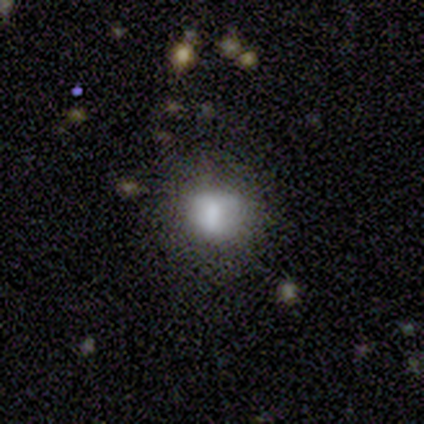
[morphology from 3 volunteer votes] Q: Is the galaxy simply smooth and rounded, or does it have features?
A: smooth — 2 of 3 (67%).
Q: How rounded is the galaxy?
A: round — 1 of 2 (50%, tied with in between).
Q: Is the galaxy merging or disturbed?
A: none — 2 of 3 (67%).